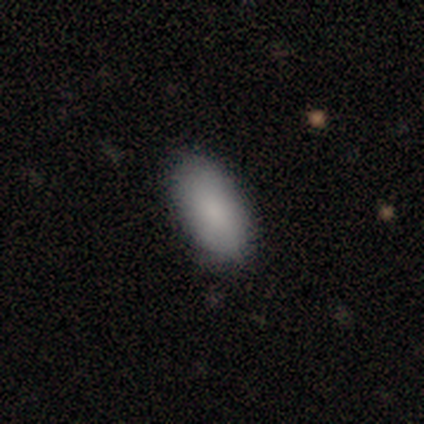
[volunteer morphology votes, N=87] Smooth or featured: smooth — 91% (featured or disk — 6%)
How rounded: in between — 96% (cigar-shaped — 4%)
Merging: none — 82% (minor disturbance — 13%)